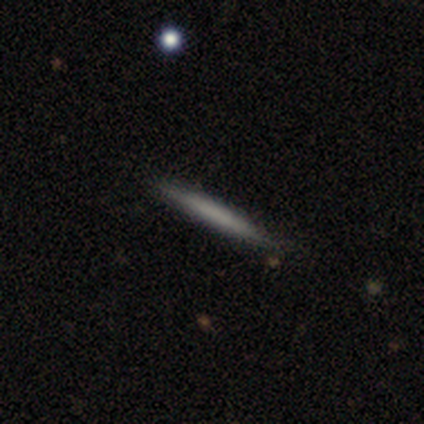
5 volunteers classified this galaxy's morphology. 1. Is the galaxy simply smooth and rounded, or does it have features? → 60% smooth, 40% featured or disk, 0% star or artifact.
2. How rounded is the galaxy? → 100% cigar-shaped, 0% round, 0% in between.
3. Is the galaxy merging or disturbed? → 80% none, 20% minor disturbance, 0% major disturbance, 0% merger.